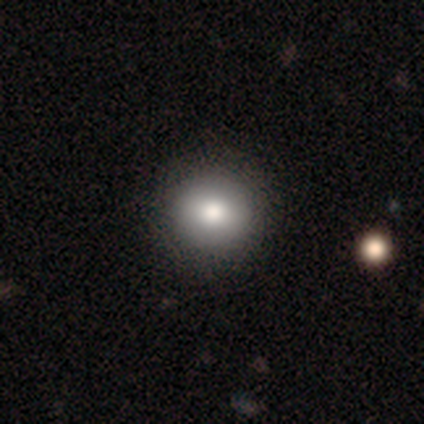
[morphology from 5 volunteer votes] Smooth or featured? smooth (100%)
How rounded? in between (60%)
Merging? none (60%)